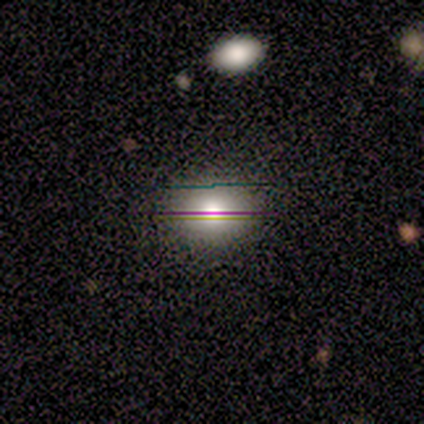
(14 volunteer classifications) Overall: smooth (64%; star or artifact 29%). How rounded: round (56%; in between 44%). Merging: none (80%).